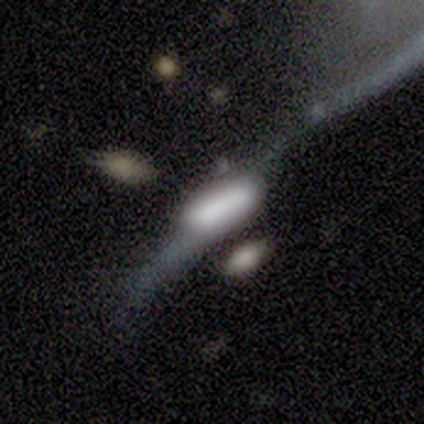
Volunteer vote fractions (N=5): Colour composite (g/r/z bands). It shows a featured or disk galaxy (60%) viewed edge-on (67%) with a boxy central bulge (100%). Merging: none (40%).